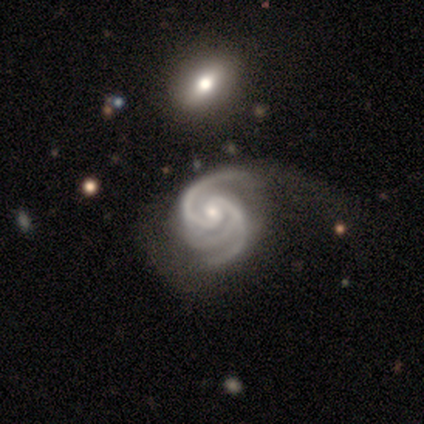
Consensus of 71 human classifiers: Overall: featured or disk (97%). Edge-on disk: no (97%). Bar: no (61%; weak 36%). Spiral arms: yes (100%). Spiral arm count: 3 (66%; 2 33%). Spiral winding: medium (54%; tight 46%). Bulge size: small (63%; moderate 34%). Merging: major disturbance (39%; none 36%).